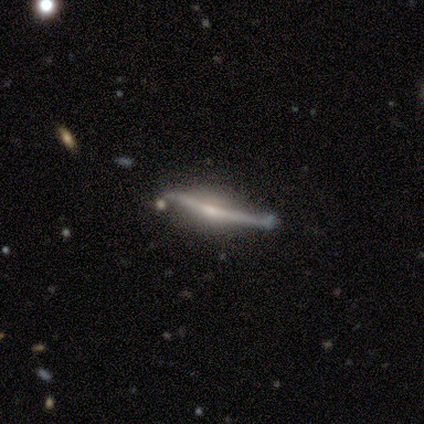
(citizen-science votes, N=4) smooth-or-featured: smooth: 50% (tied) | featured or disk: 50% (tied) | star or artifact: 0%
  how-rounded: in between: 50% (tied) | cigar-shaped: 50% (tied) | round: 0%
  merging: major disturbance: 50% | none: 25% | minor disturbance: 25% | merger: 0%